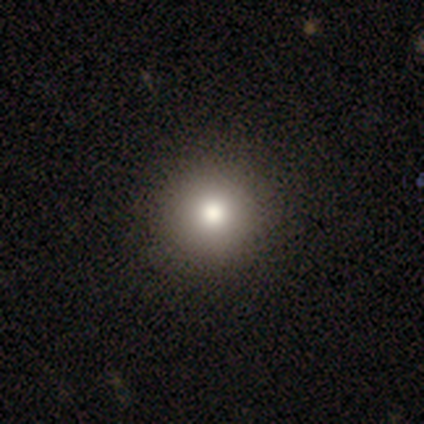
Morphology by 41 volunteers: type=smooth (71%); roundness=round (100%); merging=none (60%).